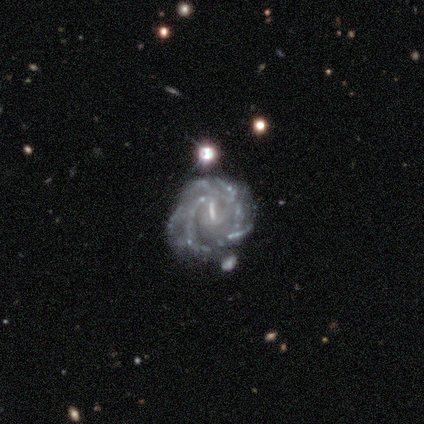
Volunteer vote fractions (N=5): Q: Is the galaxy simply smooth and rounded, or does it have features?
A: featured or disk — 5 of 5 (100%).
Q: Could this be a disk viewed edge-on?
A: no — 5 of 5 (100%).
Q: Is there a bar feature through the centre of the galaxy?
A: weak — 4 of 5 (80%).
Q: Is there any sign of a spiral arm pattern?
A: yes — 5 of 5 (100%).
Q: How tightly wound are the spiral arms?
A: tight — 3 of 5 (60%).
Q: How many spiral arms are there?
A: can't tell — 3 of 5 (60%).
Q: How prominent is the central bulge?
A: small — 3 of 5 (60%).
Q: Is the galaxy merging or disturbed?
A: none — 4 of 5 (80%).